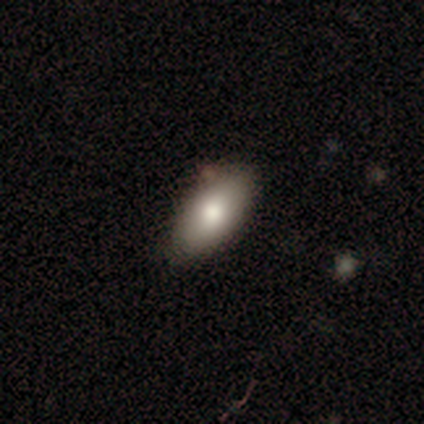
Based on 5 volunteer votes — This appears to be a smooth galaxy with no disk features (100%) that is in between round and cigar-shaped (100%). Merging: none (100%).